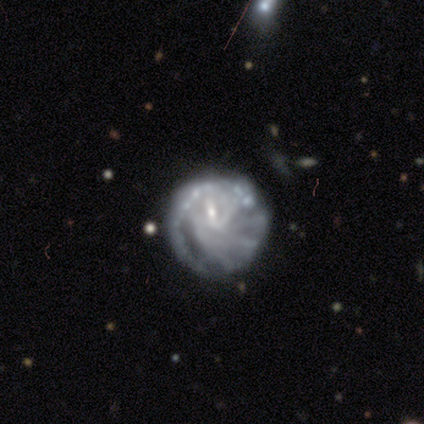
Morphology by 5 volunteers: smooth-or-featured: featured or disk: 100% | smooth: 0% | star or artifact: 0%
  disk-edge-on: no: 100% | yes: 0%
    bar: weak: 40% (tied) | no: 40% (tied) | strong: 20%
    has-spiral-arms: yes: 100% | no: 0%
      spiral-winding: tight: 60% | medium: 40% | loose: 0%
      spiral-arm-count: 1: 40% | 4: 20% | more than 4: 20% | can't tell: 20% | 2: 0% | 3: 0%
    bulge-size: small: 100% | dominant: 0% | large: 0% | moderate: 0% | none: 0%
  merging: none: 40% (tied) | minor disturbance: 40% (tied) | major disturbance: 20% | merger: 0%